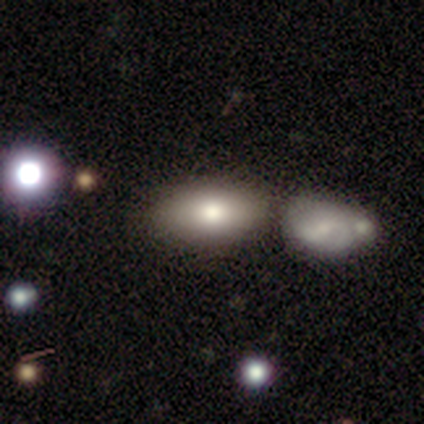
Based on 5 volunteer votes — Overall: featured or disk (60%; smooth 40%). Edge-on disk: no (100%). Bar: no (100%). Spiral arms: no (100%). Bulge size: moderate (67%; dominant 33%). Merging: none (60%; merger 40%).